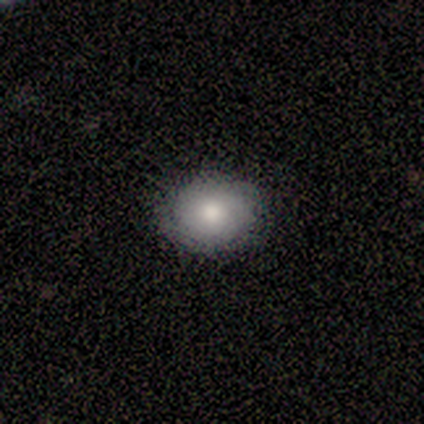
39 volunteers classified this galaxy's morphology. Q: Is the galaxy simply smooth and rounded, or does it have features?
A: smooth — 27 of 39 (69%).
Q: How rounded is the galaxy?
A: round — 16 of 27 (59%).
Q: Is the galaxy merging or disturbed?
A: none — 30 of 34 (88%).